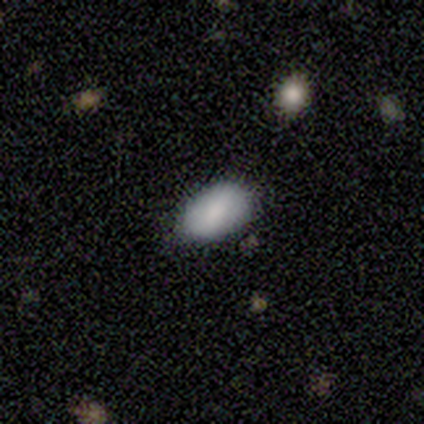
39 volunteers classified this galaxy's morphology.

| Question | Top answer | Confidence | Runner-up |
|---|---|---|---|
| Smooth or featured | smooth | 79% | star or artifact (13%) |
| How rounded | in between | 94% | round (6%) |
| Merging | none | 74% | minor disturbance (24%) |